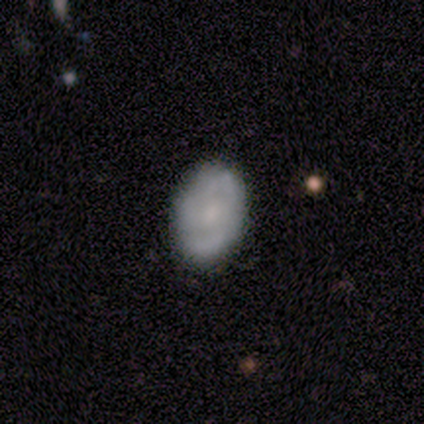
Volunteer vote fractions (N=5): featured or disk 60%, smooth 40%, star or artifact 0%. Down the decision tree: edge-on disk — no (100%); bar — no (100%); spiral arms — yes (67%); spiral arm count — 2 (50%, tied with can't tell); spiral winding — medium (50%, tied with loose); bulge size — small (67%); merging — none (100%).